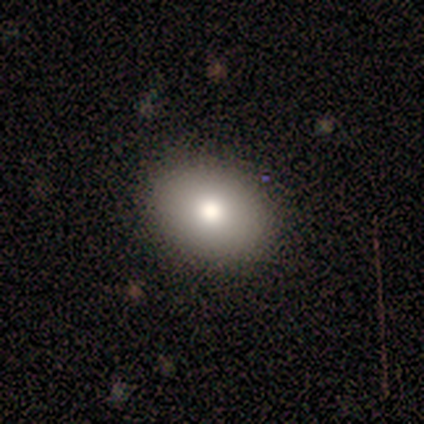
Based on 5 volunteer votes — Volunteers were most divided on "smooth or featured": smooth: 60%, featured or disk: 40%, star or artifact: 0%. More confident: merging — none (80%); how rounded — round (67%).